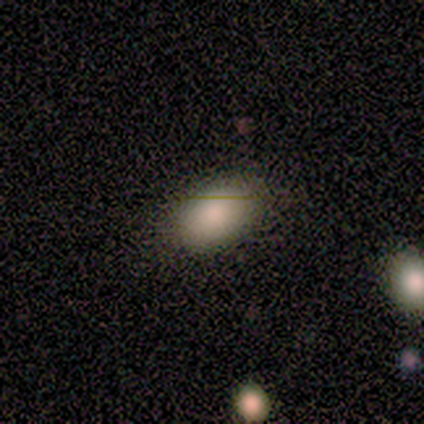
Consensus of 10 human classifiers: A smooth galaxy with no disk features (90%) that is in between round and cigar-shaped (100%).

Vote fractions:
- Smooth or featured? smooth: 90% / star or artifact: 10% / featured or disk: 0%
- How rounded? in between: 100% / round: 0% / cigar-shaped: 0%
- Merging? none: 100% / minor disturbance: 0% / major disturbance: 0% / merger: 0%